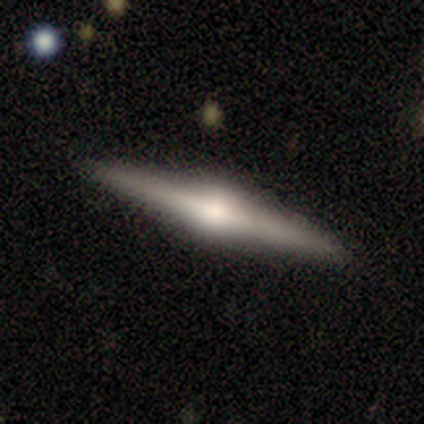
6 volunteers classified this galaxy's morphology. Smooth or featured?
  - featured or disk: 83% *
  - smooth: 17%
  - star or artifact: 0%
Edge-on disk?
  - yes: 100% *
  - no: 0%
Edge-on bulge?
  - rounded: 80% *
  - boxy: 20%
  - none: 0%
Merging?
  - none: 100% *
  - minor disturbance: 0%
  - major disturbance: 0%
  - merger: 0%